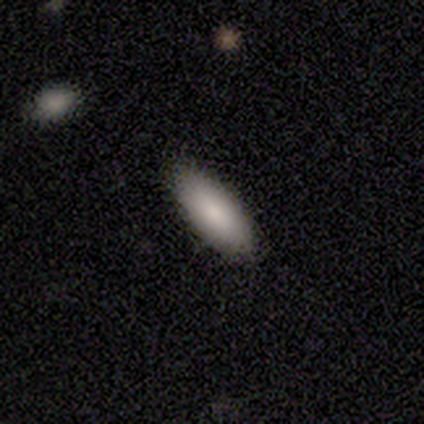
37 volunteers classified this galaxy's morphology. Smooth or featured? 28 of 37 (76%) said smooth. How rounded? 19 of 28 (68%) said in between. Merging? 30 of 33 (91%) said none.